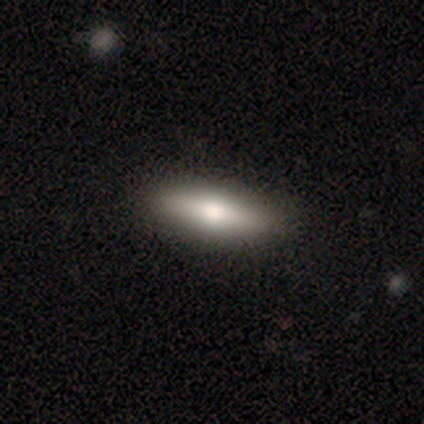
This is possibly a smooth galaxy (60%). How rounded: likely cigar-shaped (65%). Merging: clearly none (86%).